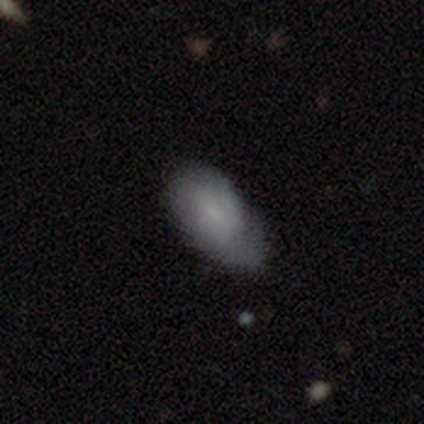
Overall: featured or disk (52%; smooth 45%). Edge-on disk: no (100%). Bar: no (86%). Spiral arms: yes (57%; no 43%). Spiral arm count: can't tell (75%). Spiral winding: tight (58%; loose 33%). Bulge size: small (43%; none 38%). Merging: none (64%).